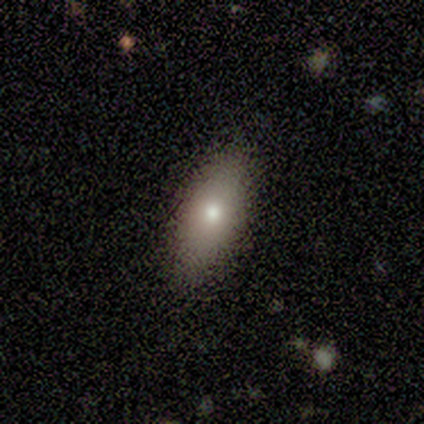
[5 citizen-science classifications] smooth 80%, featured or disk 20%, star or artifact 0%. Down the decision tree: how rounded — in between (50%, tied with cigar-shaped); merging — none (100%).